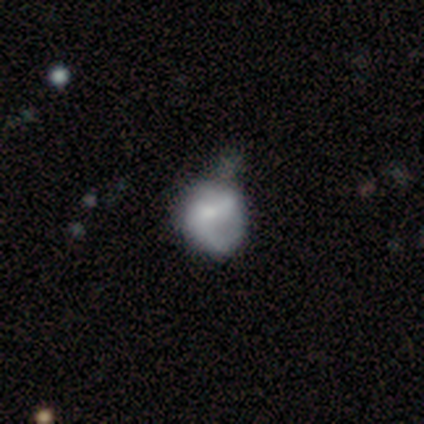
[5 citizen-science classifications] Smooth or featured? 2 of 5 (40%, tied with star or artifact) said featured or disk. Edge-on disk? 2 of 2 (100%) said no. Bar? 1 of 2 (50%, tied with no) said weak. Spiral arms? 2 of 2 (100%) said yes. Spiral winding? 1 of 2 (50%, tied with loose) said medium. Spiral arm count? 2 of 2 (100%) said 2. Bulge size? 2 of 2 (100%) said moderate. Merging? 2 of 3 (67%) said none.